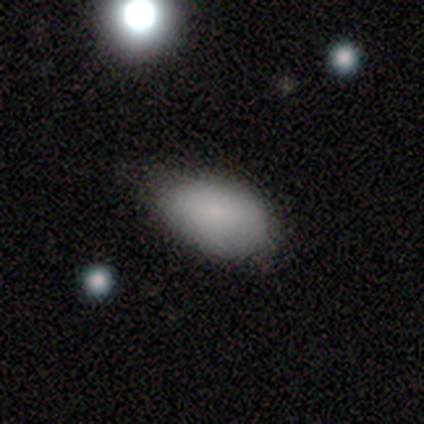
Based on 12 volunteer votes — Smooth or featured?
  - smooth: 100% *
  - featured or disk: 0%
  - star or artifact: 0%
How rounded?
  - in between: 100% *
  - round: 0%
  - cigar-shaped: 0%
Merging?
  - minor disturbance: 75% *
  - none: 25%
  - major disturbance: 0%
  - merger: 0%